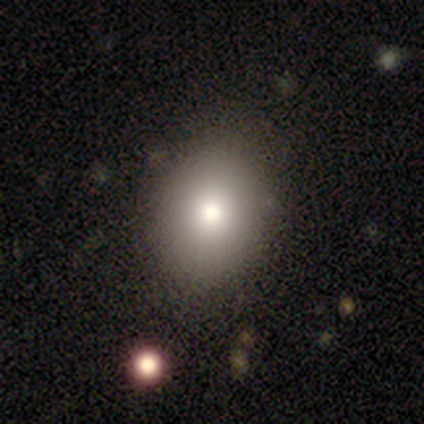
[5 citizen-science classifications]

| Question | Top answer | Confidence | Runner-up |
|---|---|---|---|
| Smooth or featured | smooth | 100% | — |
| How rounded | in between | 60% | round (40%) |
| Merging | none | 100% | — |